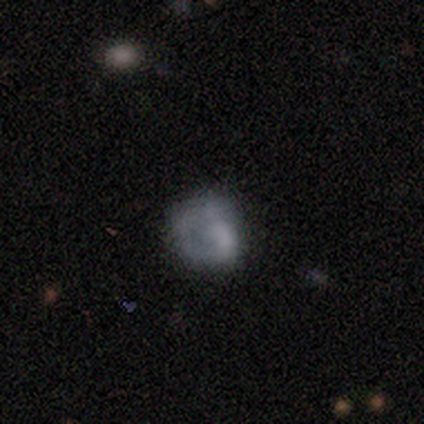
smooth 75%, featured or disk 25%, star or artifact 0%. Down the decision tree: how rounded — round (67%); merging — none (25%, tied with minor disturbance, major disturbance and merger).